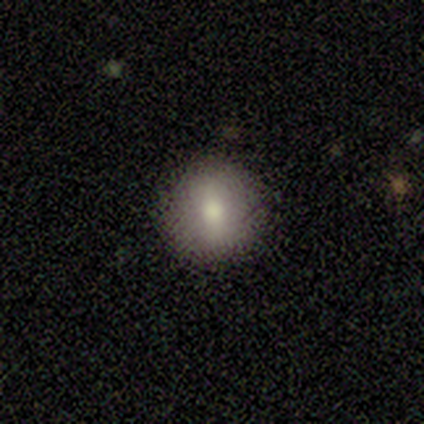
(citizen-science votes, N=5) Smooth or featured? smooth (80%)
How rounded? round (100%)
Merging? none (75%)